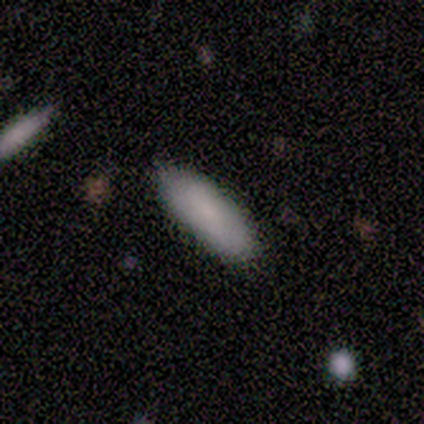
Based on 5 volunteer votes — Smooth or featured? smooth (100%)
How rounded? in between (80%)
Merging? none (80%)